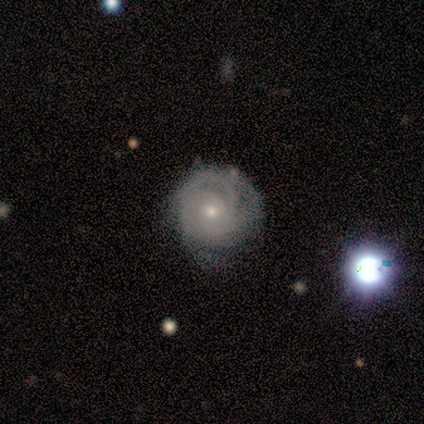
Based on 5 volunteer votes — smooth_or_featured: featured or disk (p=1.00)
disk_edge_on: no (p=1.00)
bar: no (p=0.60) [alt: weak p=0.40]
has_spiral_arms: yes (p=1.00)
spiral_winding: tight (p=0.80) [alt: medium p=0.20]
spiral_arm_count: can't tell (p=0.60) [alt: 3 p=0.20]
bulge_size: moderate (p=0.60) [alt: small p=0.40]
merging: none (p=0.60) [alt: minor disturbance p=0.40]